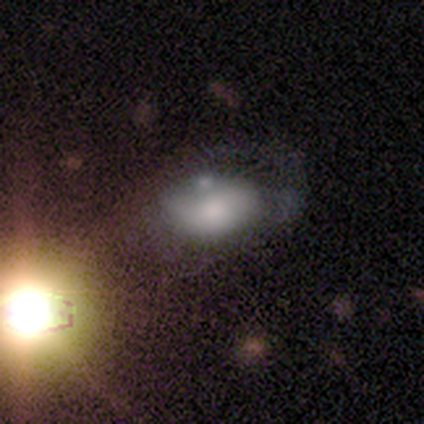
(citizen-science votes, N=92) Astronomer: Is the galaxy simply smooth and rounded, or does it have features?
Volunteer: smooth — 51% (runner-up: featured or disk, 27%).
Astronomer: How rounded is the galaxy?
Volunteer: in between — 94%.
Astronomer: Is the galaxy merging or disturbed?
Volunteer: major disturbance — 38% (runner-up: none, 28%).